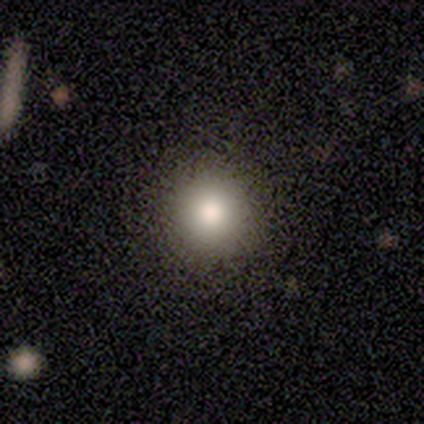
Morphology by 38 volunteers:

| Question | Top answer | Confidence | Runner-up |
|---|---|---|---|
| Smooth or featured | smooth | 84% | featured or disk (8%) |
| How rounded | round | 97% | in between (3%) |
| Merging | none | 66% | merger (3%) |